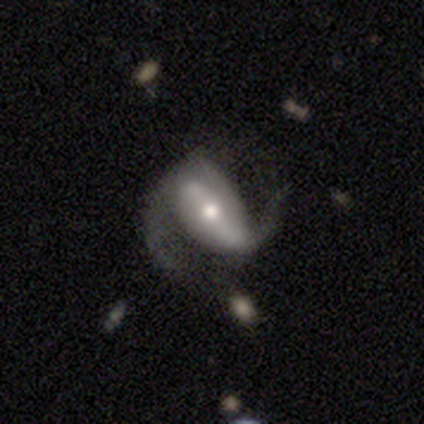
Q: Smooth or featured?
A: featured or disk (100%)
Q: Edge-on disk?
A: no (100%)
Q: Bar?
A: strong (80%); runner-up: no (20%)
Q: Spiral arms?
A: yes (100%)
Q: Spiral winding?
A: loose (60%); runner-up: tight (20%)
Q: Spiral arm count?
A: 2 (100%)
Q: Bulge size?
A: moderate (80%); runner-up: large (20%)
Q: Merging?
A: none (60%); runner-up: minor disturbance (20%)